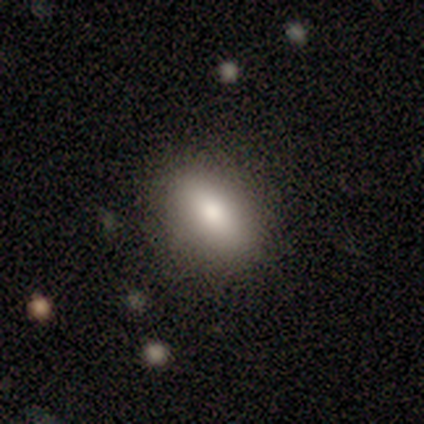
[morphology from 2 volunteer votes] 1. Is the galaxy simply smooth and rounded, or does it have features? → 100% smooth, 0% featured or disk, 0% star or artifact.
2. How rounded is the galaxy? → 100% in between, 0% round, 0% cigar-shaped.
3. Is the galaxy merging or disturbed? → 100% none, 0% minor disturbance, 0% major disturbance, 0% merger.